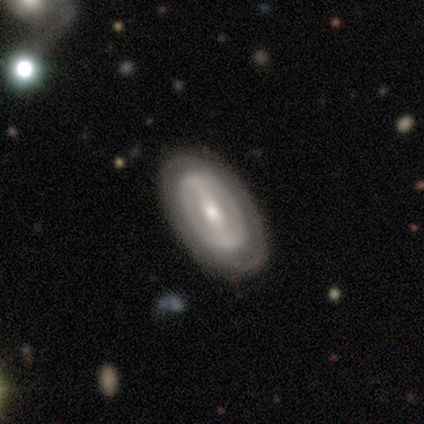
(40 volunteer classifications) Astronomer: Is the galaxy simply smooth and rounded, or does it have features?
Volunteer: featured or disk — 75%.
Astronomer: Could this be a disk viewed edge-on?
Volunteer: no — 93%.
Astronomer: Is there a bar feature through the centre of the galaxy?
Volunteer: strong — 68%.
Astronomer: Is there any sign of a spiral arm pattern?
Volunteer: yes — 50%, tied with no at 50%.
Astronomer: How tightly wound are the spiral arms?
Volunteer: tight — 50% (runner-up: medium, 29%).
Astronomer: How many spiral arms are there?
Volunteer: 2 — 50% (runner-up: can't tell, 36%).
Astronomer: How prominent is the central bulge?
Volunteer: moderate — 57% (runner-up: small, 36%).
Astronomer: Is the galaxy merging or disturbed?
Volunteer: none — 92%.